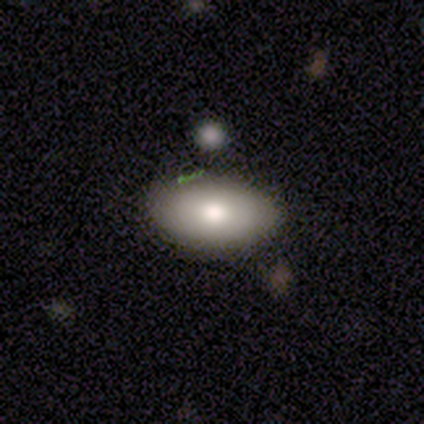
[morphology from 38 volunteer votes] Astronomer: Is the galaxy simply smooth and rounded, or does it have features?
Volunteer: smooth — 82%.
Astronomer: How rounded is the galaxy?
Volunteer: in between — 87%.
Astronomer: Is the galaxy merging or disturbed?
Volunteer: none — 84%.